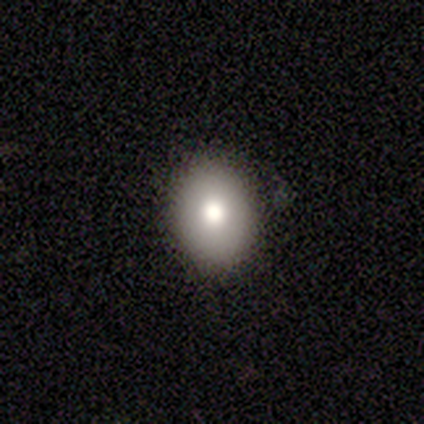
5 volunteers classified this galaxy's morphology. Overall: smooth (100%). How rounded: in between (60%; round 40%). Merging: none (100%).